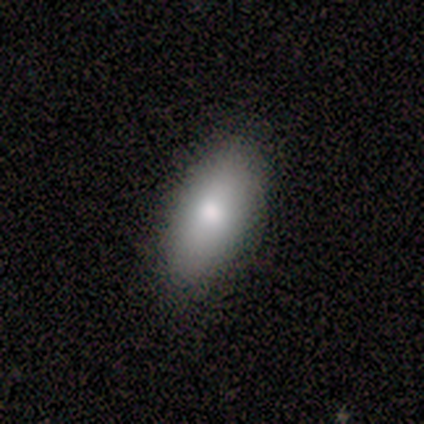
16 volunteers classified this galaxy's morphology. Smooth or featured? 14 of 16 (88%) said smooth. How rounded? 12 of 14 (86%) said in between. Merging? 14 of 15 (93%) said none.